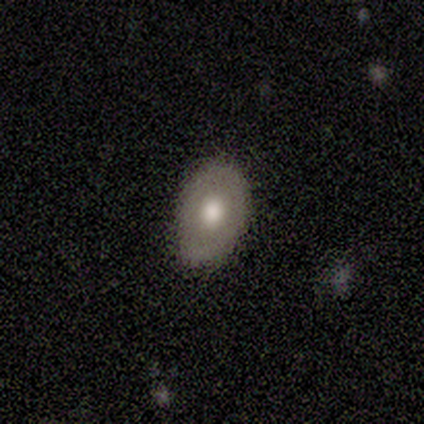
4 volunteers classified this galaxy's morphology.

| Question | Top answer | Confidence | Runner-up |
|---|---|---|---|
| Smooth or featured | smooth | 50% | tied: featured or disk (50%) |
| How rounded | in between | 100% | — |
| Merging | none | 50% | tied: minor disturbance (50%) |